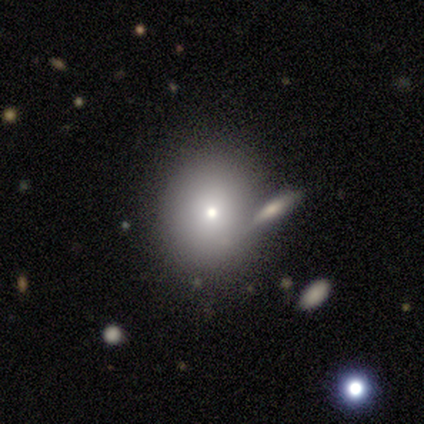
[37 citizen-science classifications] Smooth or featured? smooth (76%)
How rounded? round (64%)
Merging? none (67%)